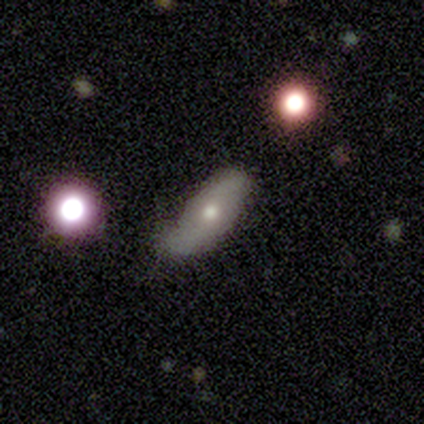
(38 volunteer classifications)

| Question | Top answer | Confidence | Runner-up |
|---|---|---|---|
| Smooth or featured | smooth | 66% | featured or disk (34%) |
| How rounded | in between | 60% | cigar-shaped (40%) |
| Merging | none | 63% | minor disturbance (29%) |